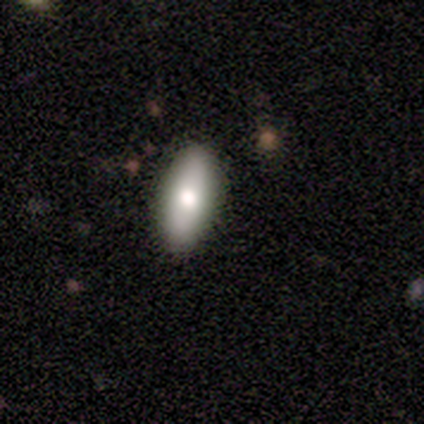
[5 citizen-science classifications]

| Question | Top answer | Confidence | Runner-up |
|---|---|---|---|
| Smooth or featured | smooth | 60% | featured or disk (40%) |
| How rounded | in between | 100% | — |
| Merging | none | 80% | major disturbance (20%) |